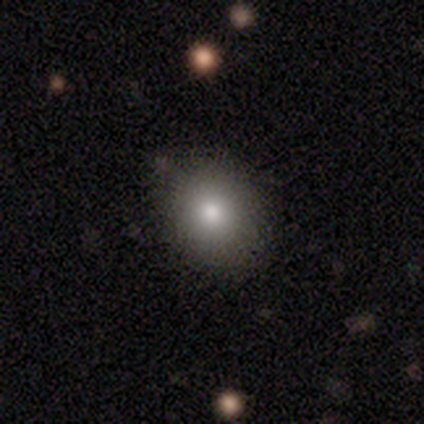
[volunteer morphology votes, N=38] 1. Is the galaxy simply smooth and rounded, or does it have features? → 74% smooth, 13% featured or disk, 13% star or artifact.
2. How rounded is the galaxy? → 68% round, 32% in between, 0% cigar-shaped.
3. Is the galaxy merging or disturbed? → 82% none, 12% minor disturbance, 3% major disturbance, 3% merger.